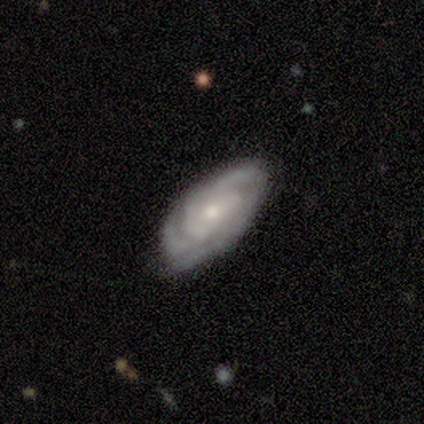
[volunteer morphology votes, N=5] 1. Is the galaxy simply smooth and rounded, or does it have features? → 80% featured or disk, 20% star or artifact, 0% smooth.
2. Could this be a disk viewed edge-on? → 75% no, 25% yes.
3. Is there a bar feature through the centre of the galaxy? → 67% no, 33% strong, 0% weak.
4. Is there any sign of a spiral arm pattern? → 100% yes, 0% no.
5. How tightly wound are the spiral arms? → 100% tight, 0% medium, 0% loose.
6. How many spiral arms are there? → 67% 2, 33% 4, 0% 1, 0% 3, 0% more than 4, 0% can't tell.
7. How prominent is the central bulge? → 67% moderate, 33% small, 0% dominant, 0% large, 0% none.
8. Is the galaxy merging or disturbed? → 100% none, 0% minor disturbance, 0% major disturbance, 0% merger.